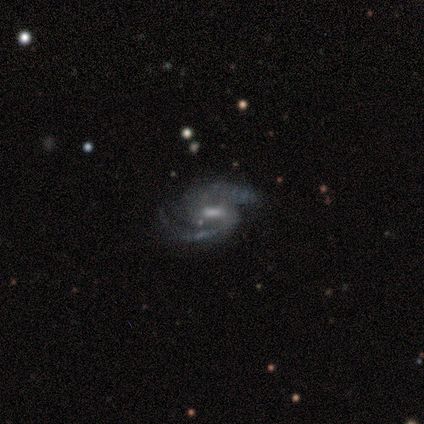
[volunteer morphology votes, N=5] Volunteers were most divided on "spiral winding" (2-way tie): tight: 40%, medium: 40%, loose: 20%. More confident: smooth or featured — featured or disk (100%); edge-on disk — no (100%); spiral arms — yes (100%); spiral arm count — 2 (80%); merging — none (80%); bar — weak (60%); bulge size — moderate (60%).